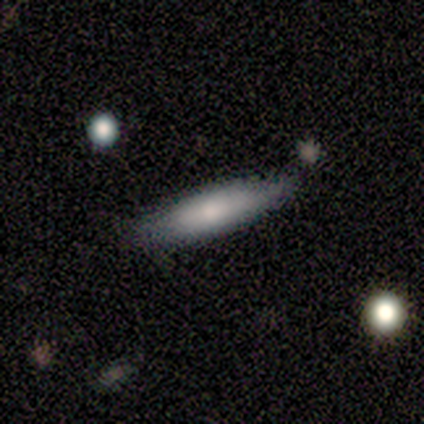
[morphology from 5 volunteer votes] Q: Smooth or featured?
A: smooth (100%)
Q: How rounded?
A: cigar-shaped (60%); runner-up: in between (40%)
Q: Merging?
A: minor disturbance (60%); runner-up: none (40%)